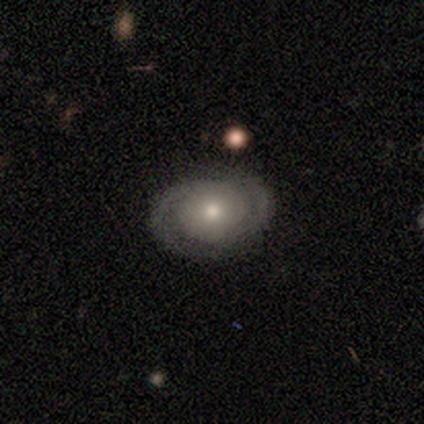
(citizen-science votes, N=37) A featured or disk galaxy (84%) with no bar (87%), 2 (85%) tight (54%) spiral arms (84%) and a moderate central bulge (58%). Merging: none (89%).